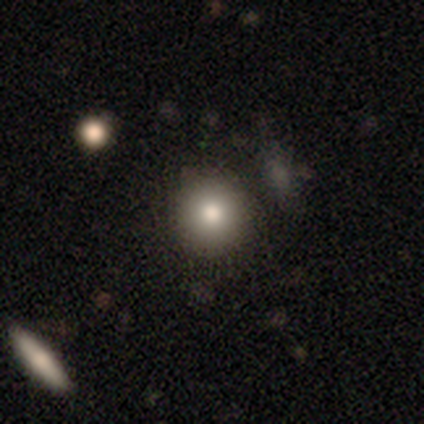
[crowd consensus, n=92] Smooth or featured? 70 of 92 (76%) said smooth. How rounded? 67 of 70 (96%) said round. Merging? 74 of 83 (89%) said none.